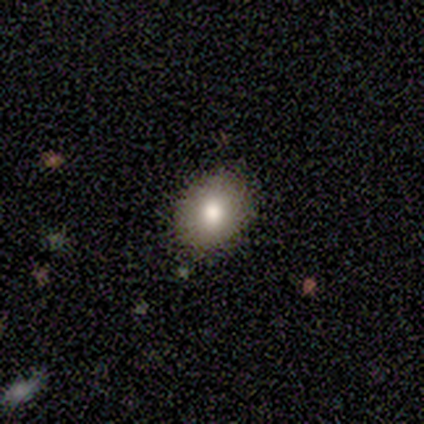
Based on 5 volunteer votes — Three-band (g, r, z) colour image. It shows a smooth galaxy with no disk features (80%) that is in between round and cigar-shaped (75%). Merging: none (100%).